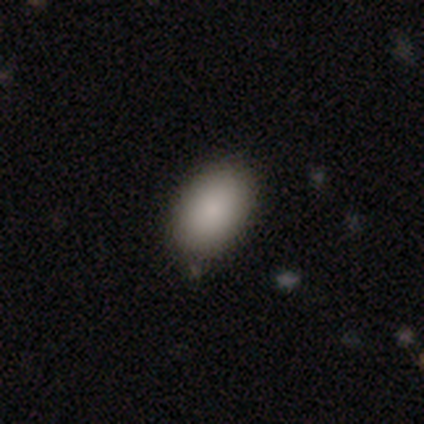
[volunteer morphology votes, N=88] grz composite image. It shows a smooth galaxy with no disk features (90%) that is in between round and cigar-shaped (92%). Merging: none (78%).